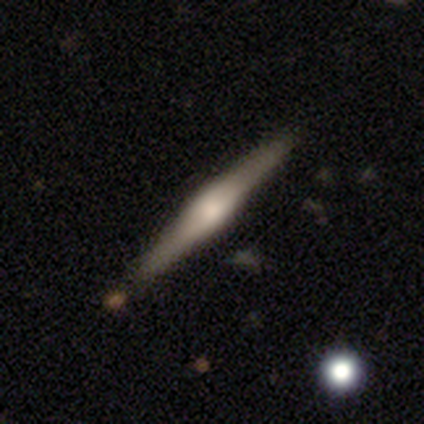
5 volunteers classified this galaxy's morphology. A featured or disk galaxy (80%) viewed edge-on (100%) with a boxy central bulge (50%, tied with rounded).

Vote fractions:
- Smooth or featured? featured or disk: 80% / smooth: 20% / star or artifact: 0%
- Edge-on disk? yes: 100% / no: 0%
- Edge-on bulge? boxy: 50% (tied) / rounded: 50% (tied) / none: 0%
- Merging? none: 100% / minor disturbance: 0% / major disturbance: 0% / merger: 0%